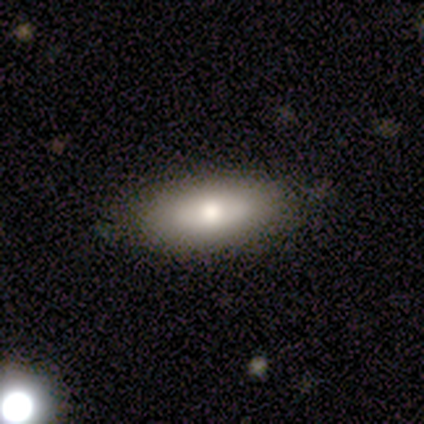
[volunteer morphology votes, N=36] Smooth or featured?
  - smooth: 75% *
  - featured or disk: 17%
  - star or artifact: 8%
How rounded?
  - in between: 93% *
  - cigar-shaped: 7%
  - round: 0%
Merging?
  - none: 91% *
  - minor disturbance: 6%
  - major disturbance: 3%
  - merger: 0%